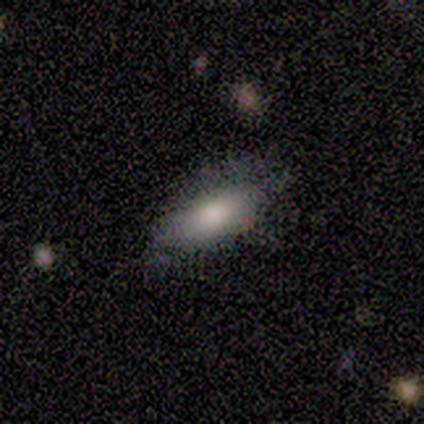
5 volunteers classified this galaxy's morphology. smooth-or-featured: smooth: 100% | featured or disk: 0% | star or artifact: 0%
  how-rounded: in between: 80% | cigar-shaped: 20% | round: 0%
  merging: none: 60% | minor disturbance: 40% | major disturbance: 0% | merger: 0%